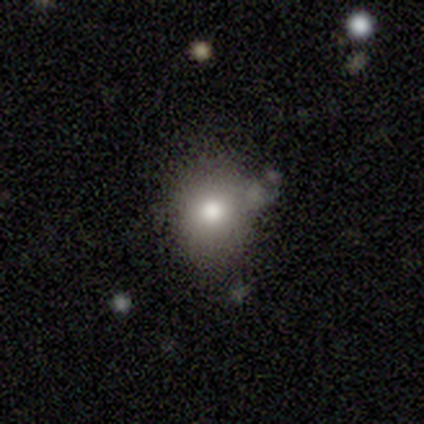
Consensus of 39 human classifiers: This appears to be a smooth galaxy with no disk features (69%) that is round (67%). Merging: none (56%).